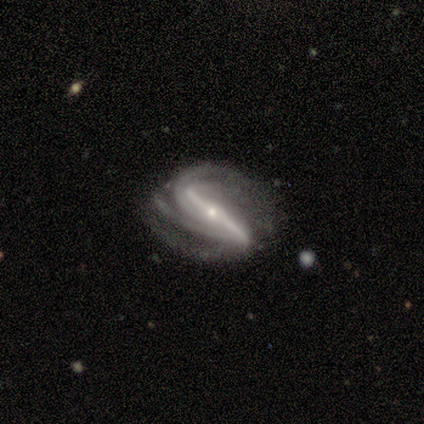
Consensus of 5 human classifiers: A featured or disk galaxy (100%) with a strong bar (100%), 2 (75%) tight (50%, tied with medium) spiral arms (100%) and a small central bulge (100%).

Vote fractions:
- Smooth or featured? featured or disk: 100% / smooth: 0% / star or artifact: 0%
- Edge-on disk? no: 80% / yes: 20%
- Bar? strong: 100% / weak: 0% / no: 0%
- Spiral arms? yes: 100% / no: 0%
- Spiral winding? tight: 50% (tied) / medium: 50% (tied) / loose: 0%
- Spiral arm count? 2: 75% / 4: 25% / 1: 0% / 3: 0% / more than 4: 0% / can't tell: 0%
- Bulge size? small: 100% / dominant: 0% / large: 0% / moderate: 0% / none: 0%
- Merging? none: 60% / minor disturbance: 40% / major disturbance: 0% / merger: 0%